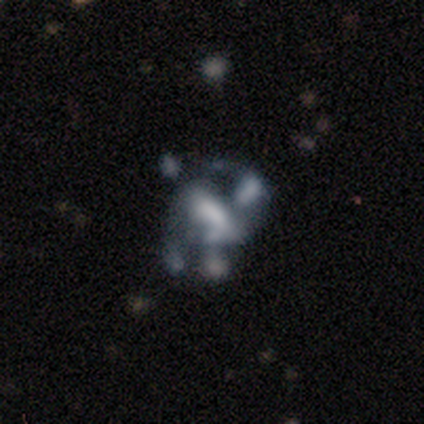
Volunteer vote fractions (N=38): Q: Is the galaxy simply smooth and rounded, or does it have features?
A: featured or disk — 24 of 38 (63%).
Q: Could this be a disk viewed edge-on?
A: no — 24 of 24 (100%).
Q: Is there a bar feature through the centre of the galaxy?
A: no — 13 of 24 (54%).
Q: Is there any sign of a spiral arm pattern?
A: no — 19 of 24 (79%).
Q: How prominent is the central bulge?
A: none — 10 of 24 (42%).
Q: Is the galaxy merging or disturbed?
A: merger — 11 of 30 (37%).